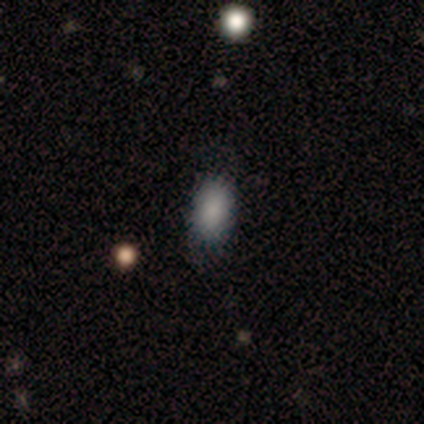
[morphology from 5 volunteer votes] type=smooth (100%); roundness=in between (100%); merging=none (60%).